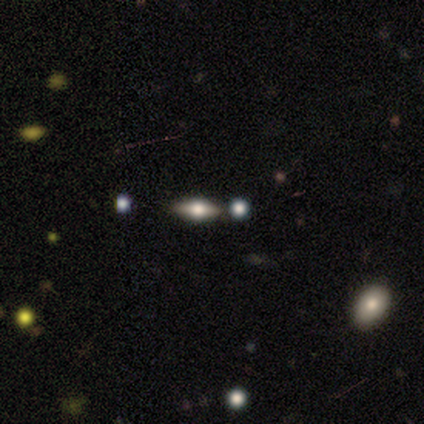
Morphology: type=smooth (75%); roundness=in between (67%); merging=none (67%).